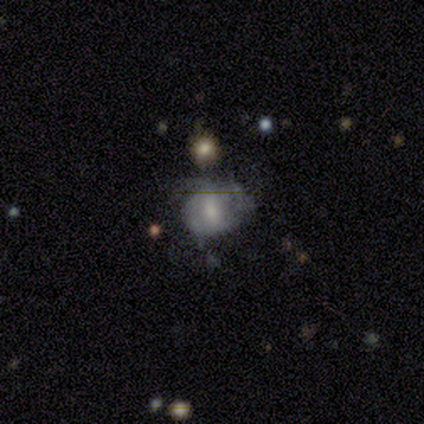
This is likely a smooth galaxy (75%). How rounded: clearly round (100%). Merging: possibly minor disturbance (50%, tied with major disturbance).